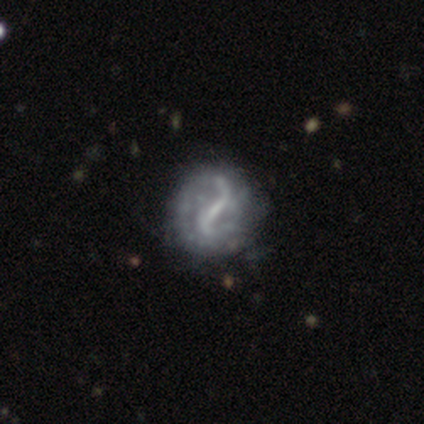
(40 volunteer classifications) This is clearly a featured or disk galaxy (98%). It is clearly not viewed edge-on (100%). Bar: likely strong (67%). Spiral arm pattern: clearly yes (82%). Spiral arm count: clearly 2 (84%). Spiral winding: likely loose (72%). Central bulge: possibly none (51%). Merging: possibly none (59%).